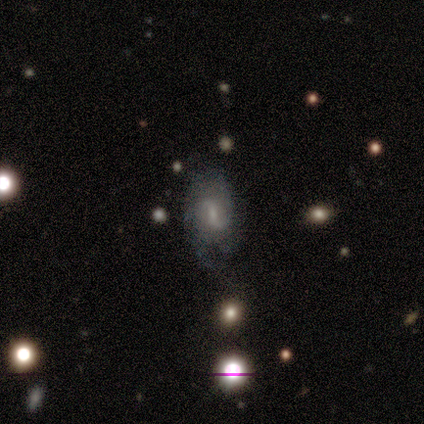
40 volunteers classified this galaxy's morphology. This appears to be a featured or disk galaxy (82%) with a weak bar (55%), 2 (70%) loose (53%) spiral arms (91%) and a small central bulge (52%). Merging: none (46%).